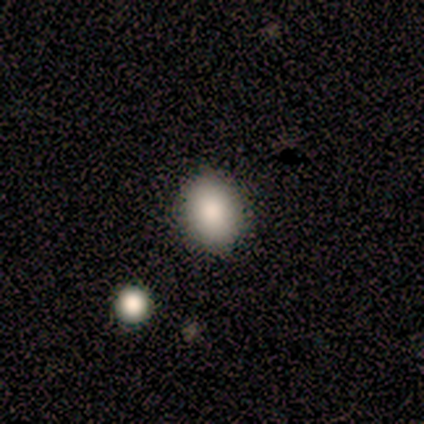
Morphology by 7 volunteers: smooth_or_featured: smooth (p=0.86) [alt: star or artifact p=0.14]
how_rounded: in between (p=0.83) [alt: round p=0.17]
merging: none (p=0.67) [alt: minor disturbance p=0.33]